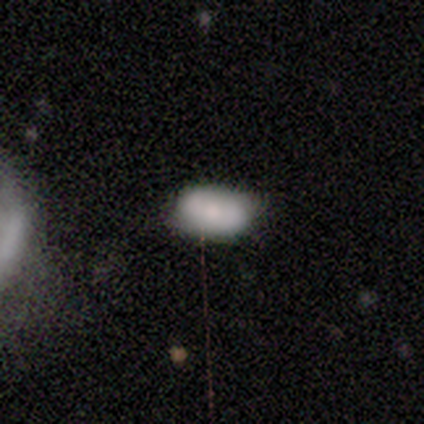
smooth-or-featured: smooth: 40% (tied) | star or artifact: 40% (tied) | featured or disk: 20%
  how-rounded: in between: 100% | round: 0% | cigar-shaped: 0%
  merging: none: 67% | minor disturbance: 33% | major disturbance: 0% | merger: 0%